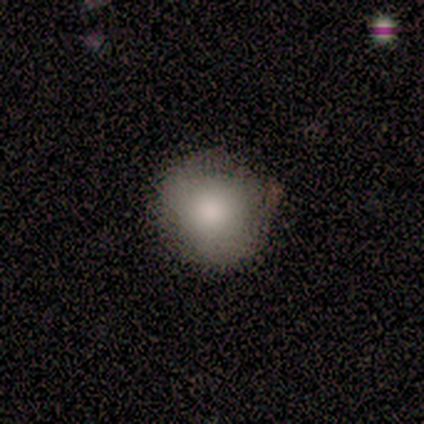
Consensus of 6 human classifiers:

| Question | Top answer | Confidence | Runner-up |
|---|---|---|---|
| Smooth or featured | smooth | 83% | featured or disk (17%) |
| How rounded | round | 100% | — |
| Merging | none | 83% | minor disturbance (17%) |